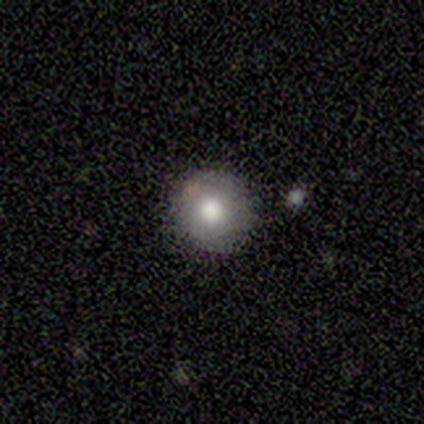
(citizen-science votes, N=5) A smooth galaxy with no disk features (100%) that is round (80%).

Vote fractions:
- Smooth or featured? smooth: 100% / featured or disk: 0% / star or artifact: 0%
- How rounded? round: 80% / in between: 20% / cigar-shaped: 0%
- Merging? none: 60% / minor disturbance: 20% / major disturbance: 20% / merger: 0%